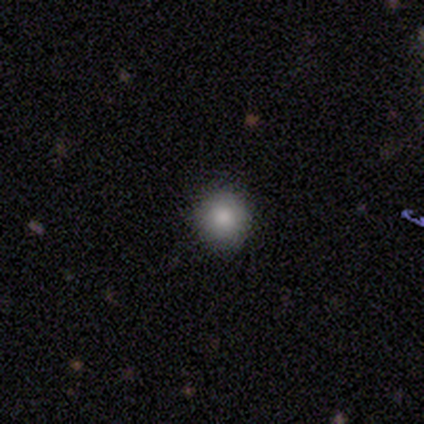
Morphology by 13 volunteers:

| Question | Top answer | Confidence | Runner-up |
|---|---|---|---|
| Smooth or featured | smooth | 85% | featured or disk (15%) |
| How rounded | round | 91% | in between (9%) |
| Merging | none | 69% | minor disturbance (31%) |